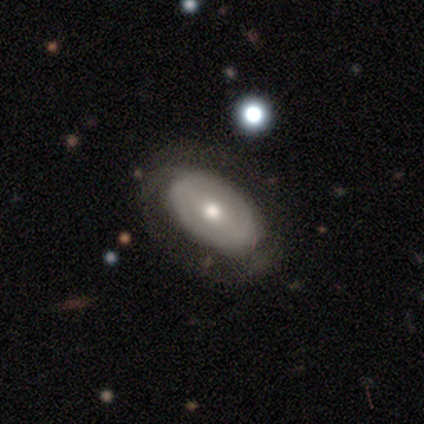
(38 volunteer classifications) featured or disk 68%, smooth 29%, star or artifact 3%. Down the decision tree: edge-on disk — no (92%); bar — weak (42%, tied with no); spiral arms — yes (58%); spiral arm count — 2 (43%); spiral winding — tight (50%); bulge size — moderate (88%); merging — none (49%).